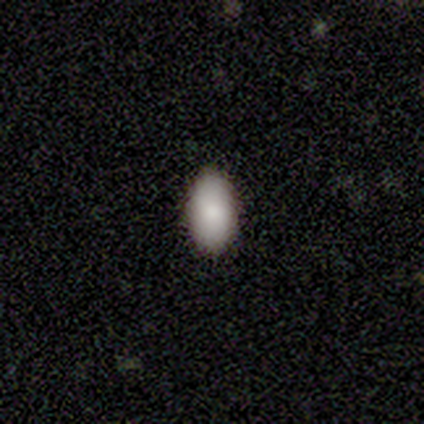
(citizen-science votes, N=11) A smooth galaxy with no disk features (82%) that is in between round and cigar-shaped (100%). Merging: none (82%).